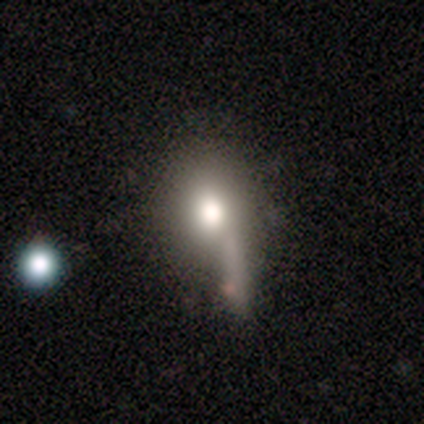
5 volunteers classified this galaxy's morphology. Smooth or featured: smooth — 60% (featured or disk — 40%)
How rounded: in between — 67% (cigar-shaped — 33%)
Merging: minor disturbance — 60% (major disturbance — 20%)